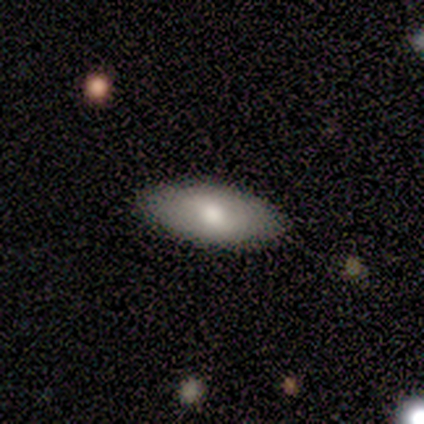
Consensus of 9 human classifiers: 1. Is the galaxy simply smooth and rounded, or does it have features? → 56% smooth, 22% featured or disk, 22% star or artifact.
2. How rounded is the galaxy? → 100% in between, 0% round, 0% cigar-shaped.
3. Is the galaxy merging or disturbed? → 86% none, 14% minor disturbance, 0% major disturbance, 0% merger.